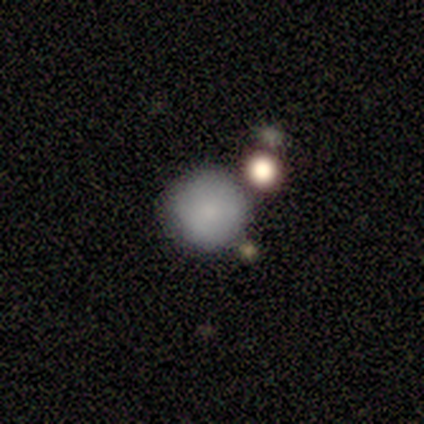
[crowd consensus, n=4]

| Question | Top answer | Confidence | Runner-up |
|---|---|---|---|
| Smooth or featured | smooth | 100% | — |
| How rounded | round | 100% | — |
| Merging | none | 100% | — |